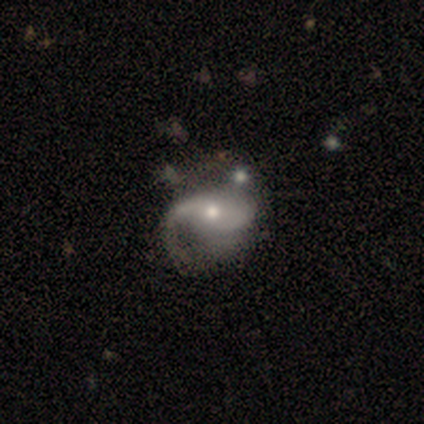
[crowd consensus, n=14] smooth-or-featured: featured or disk: 71% | smooth: 21% | star or artifact: 7%
  disk-edge-on: no: 90% | yes: 10%
    bar: weak: 44% | no: 33% | strong: 22%
    has-spiral-arms: yes: 100% | no: 0%
      spiral-winding: loose: 67% | medium: 33% | tight: 0%
      spiral-arm-count: 2: 67% | 1: 22% | can't tell: 11% | 3: 0% | 4: 0% | more than 4: 0%
    bulge-size: moderate: 44% | small: 33% | large: 22% | dominant: 0% | none: 0%
  merging: major disturbance: 46% | minor disturbance: 38% | none: 15% | merger: 0%